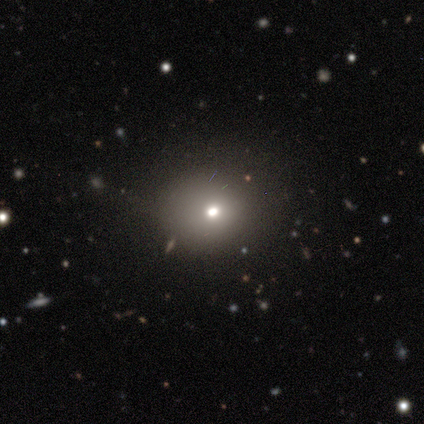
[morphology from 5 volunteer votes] Volunteers were most divided on "merging": none: 75%, minor disturbance: 25%, major disturbance: 0%, merger: 0%. More confident: how rounded — round (100%); smooth or featured — smooth (80%).